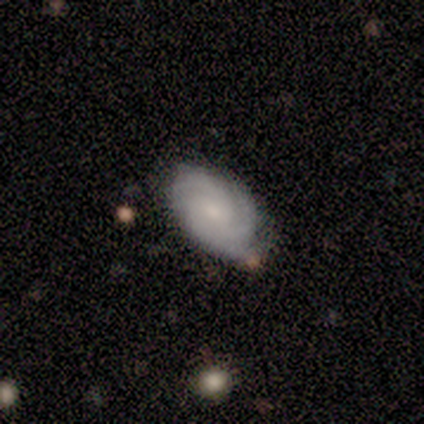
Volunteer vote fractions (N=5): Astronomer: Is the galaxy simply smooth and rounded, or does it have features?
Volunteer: featured or disk — 80%.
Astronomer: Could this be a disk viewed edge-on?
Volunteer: no — 100%.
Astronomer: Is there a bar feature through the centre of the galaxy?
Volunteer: no — 100%.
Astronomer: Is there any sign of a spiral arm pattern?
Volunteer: yes — 100%.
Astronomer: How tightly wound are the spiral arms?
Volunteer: tight — 50%, tied with medium at 50%.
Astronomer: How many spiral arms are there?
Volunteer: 3 — 75%.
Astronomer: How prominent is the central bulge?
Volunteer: small — 75%.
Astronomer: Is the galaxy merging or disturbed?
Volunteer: none — 60% (runner-up: minor disturbance, 40%).